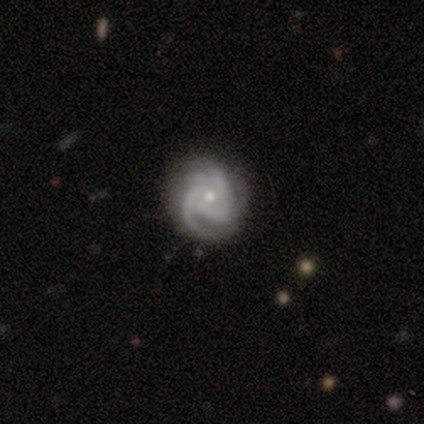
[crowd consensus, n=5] Q: Smooth or featured?
A: featured or disk (100%)
Q: Edge-on disk?
A: no (100%)
Q: Bar?
A: no (80%); runner-up: weak (20%)
Q: Spiral arms?
A: yes (100%)
Q: Spiral winding?
A: tight (60%); runner-up: medium (20%)
Q: Spiral arm count?
A: can't tell (40%); runner-up: 1 (20%)
Q: Bulge size?
A: small (60%); runner-up: moderate (40%)
Q: Merging?
A: none (80%); runner-up: minor disturbance (20%)